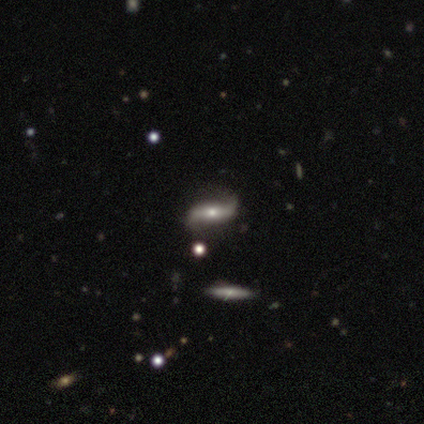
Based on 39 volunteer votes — Overall: featured or disk (67%). Edge-on disk: no (92%). Bar: no (38%; strong 33%). Spiral arms: yes (92%). Spiral arm count: 2 (95%). Spiral winding: loose (91%). Bulge size: moderate (42%, tied with small). Merging: none (60%).